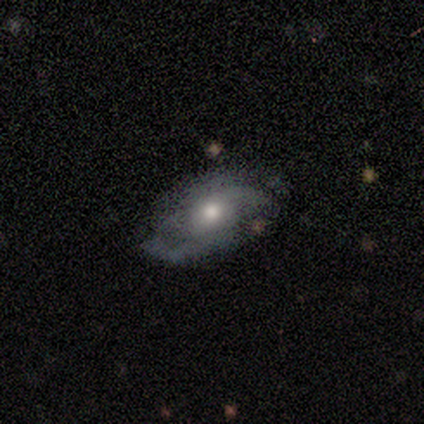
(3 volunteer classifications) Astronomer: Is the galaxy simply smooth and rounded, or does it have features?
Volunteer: featured or disk — 67%.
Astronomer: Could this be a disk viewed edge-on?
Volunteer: no — 100%.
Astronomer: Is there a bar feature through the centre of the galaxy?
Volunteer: no — 100%.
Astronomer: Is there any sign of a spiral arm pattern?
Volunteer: yes — 50%, tied with no at 50%.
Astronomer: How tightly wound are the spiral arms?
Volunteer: tight — 100%.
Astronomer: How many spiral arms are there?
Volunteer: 2 — 100%.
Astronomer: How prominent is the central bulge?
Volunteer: moderate — 50%, tied with small at 50%.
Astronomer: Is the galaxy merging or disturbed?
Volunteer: none — 33%, tied with minor disturbance and major disturbance at 33%.